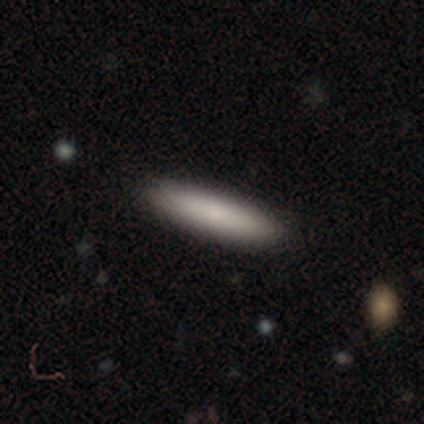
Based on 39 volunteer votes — Smooth or featured: smooth — 85% (featured or disk — 13%)
How rounded: cigar-shaped — 88% (in between — 12%)
Merging: none — 89% (minor disturbance — 8%)